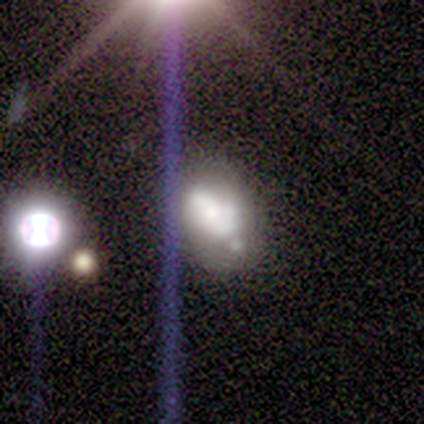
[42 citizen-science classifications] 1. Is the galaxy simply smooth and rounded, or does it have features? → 45% featured or disk, 29% smooth, 26% star or artifact.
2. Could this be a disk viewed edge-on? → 95% no, 5% yes.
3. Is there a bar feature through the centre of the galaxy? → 78% no, 22% weak, 0% strong.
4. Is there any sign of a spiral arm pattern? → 56% no, 44% yes.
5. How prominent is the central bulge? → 28% dominant, 22% large, 22% moderate, 22% small, 6% none.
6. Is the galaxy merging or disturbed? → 42% minor disturbance, 35% none, 13% major disturbance, 10% merger.